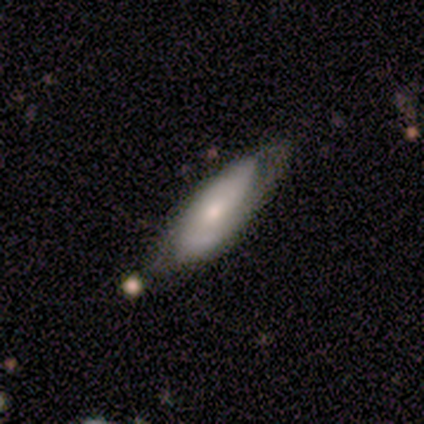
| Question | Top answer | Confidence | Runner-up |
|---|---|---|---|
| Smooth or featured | featured or disk | 50% | smooth (25%) |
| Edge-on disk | no | 100% | — |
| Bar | weak | 50% | tied: no (50%) |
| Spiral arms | yes | 100% | — |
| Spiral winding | tight | 100% | — |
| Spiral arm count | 2 | 50% | tied: can't tell (50%) |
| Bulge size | moderate | 50% | tied: small (50%) |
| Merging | none | 100% | — |